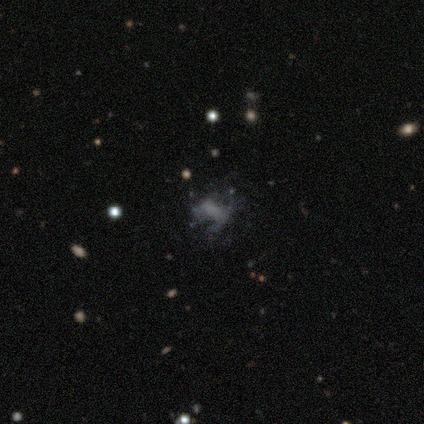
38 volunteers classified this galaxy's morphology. type=featured or disk (61%); edge-on=no (96%); bar=no (59%); spiral arms=no (91%); bulge=none (82%); merging=none (50%).